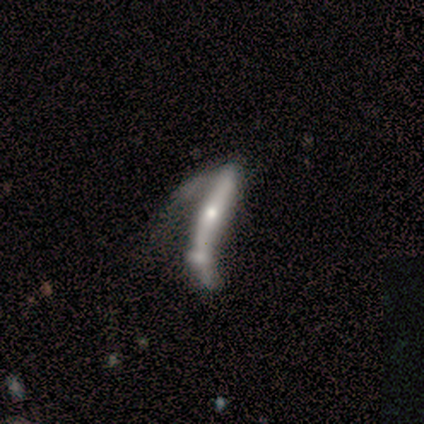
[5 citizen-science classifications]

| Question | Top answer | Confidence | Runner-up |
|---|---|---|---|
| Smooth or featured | smooth | 80% | featured or disk (20%) |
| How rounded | cigar-shaped | 100% | — |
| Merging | major disturbance | 60% | merger (40%) |